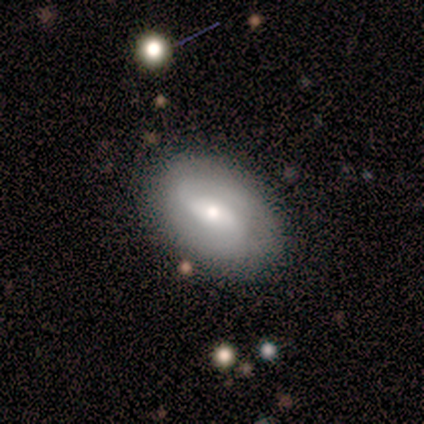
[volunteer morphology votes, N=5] Smooth or featured?
  - featured or disk: 80% *
  - smooth: 20%
  - star or artifact: 0%
Edge-on disk?
  - no: 100% *
  - yes: 0%
Bar?
  - weak: 75% *
  - no: 25%
  - strong: 0%
Spiral arms?
  - yes: 100% *
  - no: 0%
Spiral winding?
  - medium: 50% *
  - tight: 25%
  - loose: 25%
Spiral arm count?
  - 2: 100% *
  - 1: 0%
  - 3: 0%
  - 4: 0%
  - more than 4: 0%
  - can't tell: 0%
Bulge size?
  - moderate: 75% *
  - small: 25%
  - dominant: 0%
  - large: 0%
  - none: 0%
Merging?
  - none: 80% *
  - minor disturbance: 20%
  - major disturbance: 0%
  - merger: 0%